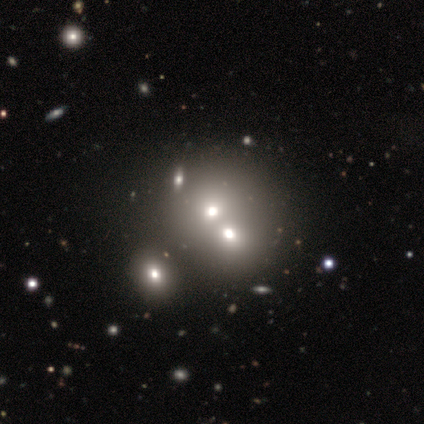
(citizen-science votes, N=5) Smooth or featured: smooth — 80% (star or artifact — 20%)
How rounded: round — 100%
Merging: merger — 100%